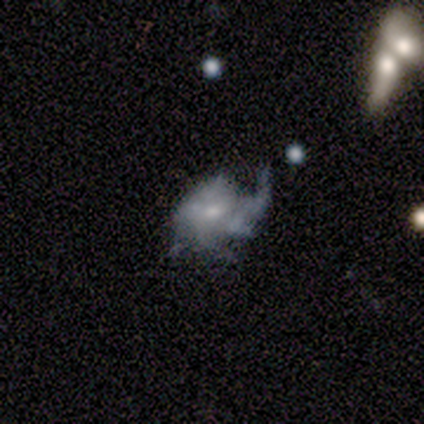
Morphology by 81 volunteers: Smooth or featured? 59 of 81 (73%) said featured or disk. Edge-on disk? 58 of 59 (98%) said no. Bar? 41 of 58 (71%) said no. Spiral arms? 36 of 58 (62%) said yes. Spiral winding? 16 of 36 (44%) said loose. Spiral arm count? 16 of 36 (44%) said can't tell. Bulge size? 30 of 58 (52%) said small. Merging? 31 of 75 (41%) said major disturbance.